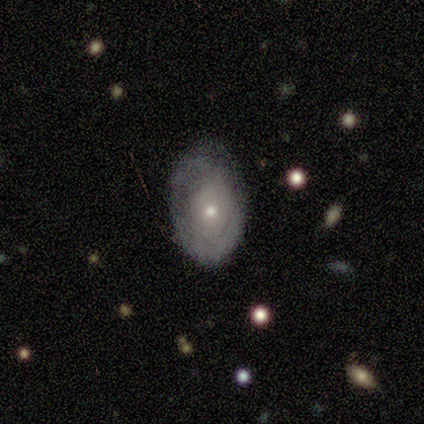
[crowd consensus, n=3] A smooth galaxy with no disk features (67%) that is in between round and cigar-shaped (100%).

Vote fractions:
- Smooth or featured? smooth: 67% / featured or disk: 33% / star or artifact: 0%
- How rounded? in between: 100% / round: 0% / cigar-shaped: 0%
- Merging? none: 67% / minor disturbance: 33% / major disturbance: 0% / merger: 0%